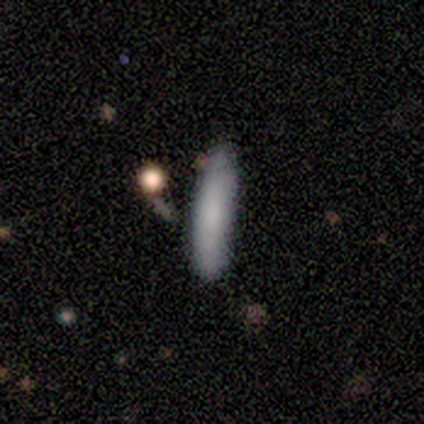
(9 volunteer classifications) Smooth or featured?
  - smooth: 89% *
  - featured or disk: 11%
  - star or artifact: 0%
How rounded?
  - cigar-shaped: 100% *
  - round: 0%
  - in between: 0%
Merging?
  - none: 67% *
  - minor disturbance: 33%
  - major disturbance: 0%
  - merger: 0%